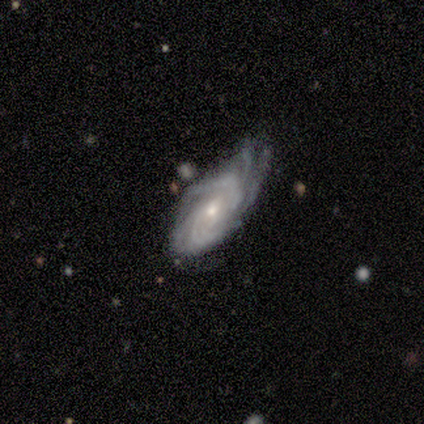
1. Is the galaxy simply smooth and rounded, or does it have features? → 80% featured or disk, 20% smooth, 0% star or artifact.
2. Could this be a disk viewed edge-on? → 100% no, 0% yes.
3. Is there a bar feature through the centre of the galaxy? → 50% weak (tied), 50% no (tied), 0% strong.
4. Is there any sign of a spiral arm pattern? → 100% yes, 0% no.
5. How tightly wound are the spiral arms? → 75% tight, 25% medium, 0% loose.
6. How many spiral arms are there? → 75% more than 4, 25% 4, 0% 1, 0% 2, 0% 3, 0% can't tell.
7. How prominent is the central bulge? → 75% small, 25% moderate, 0% dominant, 0% large, 0% none.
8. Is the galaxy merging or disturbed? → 60% none, 40% minor disturbance, 0% major disturbance, 0% merger.